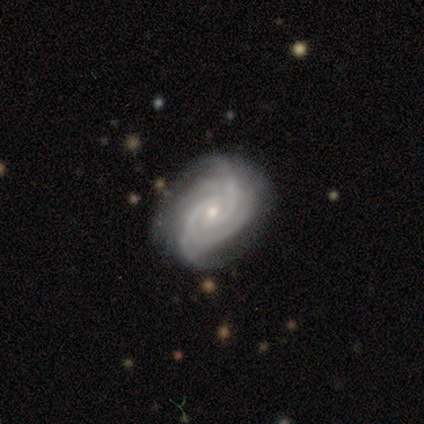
This is clearly a featured or disk galaxy (100%). It is clearly not viewed edge-on (100%). Bar: clearly weak (80%). Spiral arm pattern: clearly yes (100%). Spiral arm count: likely 2 (60%). Spiral winding: likely tight (60%). Central bulge: likely small (60%). Merging: likely none (60%).